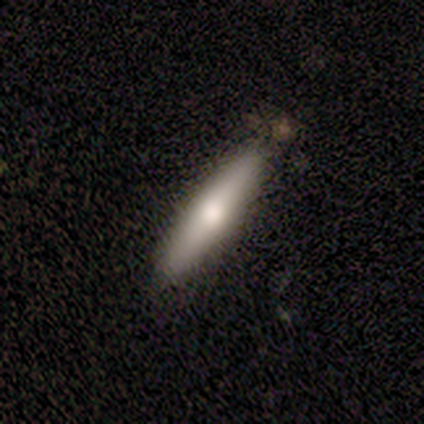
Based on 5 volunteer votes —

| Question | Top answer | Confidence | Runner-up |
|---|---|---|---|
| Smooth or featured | featured or disk | 60% | smooth (20%) |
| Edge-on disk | yes | 100% | — |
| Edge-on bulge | rounded | 67% | none (33%) |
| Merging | none | 75% | minor disturbance (25%) |